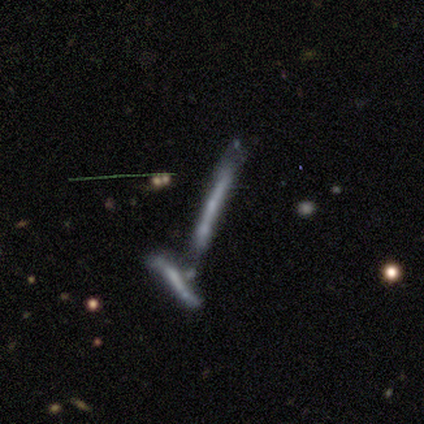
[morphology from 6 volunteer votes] Smooth or featured?
  - featured or disk: 50% *
  - smooth: 33%
  - star or artifact: 17%
Edge-on disk?
  - yes: 100% *
  - no: 0%
Edge-on bulge?
  - none: 100% *
  - boxy: 0%
  - rounded: 0%
Merging?
  - merger: 60% *
  - none: 20%
  - minor disturbance: 20%
  - major disturbance: 0%